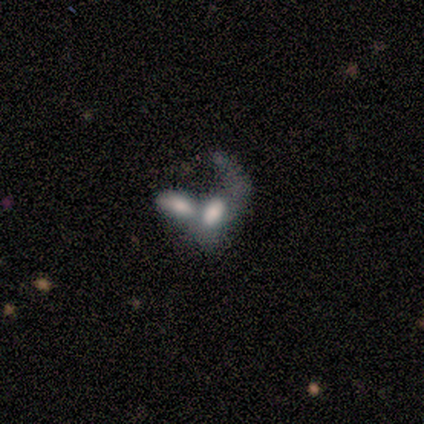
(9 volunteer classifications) Volunteers were most divided on "smooth or featured": smooth: 67%, featured or disk: 33%, star or artifact: 0%. More confident: how rounded — in between (100%); merging — merger (100%).